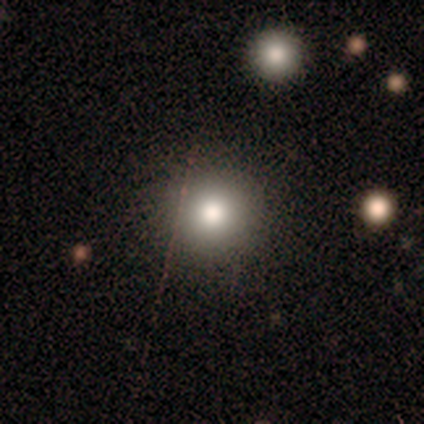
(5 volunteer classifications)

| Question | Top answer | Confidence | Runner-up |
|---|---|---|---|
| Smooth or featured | smooth | 100% | — |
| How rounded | round | 100% | — |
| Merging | none | 100% | — |